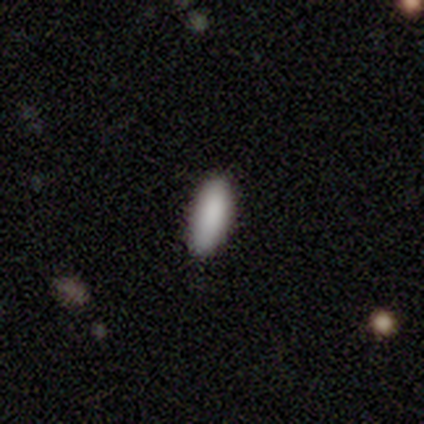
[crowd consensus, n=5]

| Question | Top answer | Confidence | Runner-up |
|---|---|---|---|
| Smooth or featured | smooth | 100% | — |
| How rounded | in between | 80% | cigar-shaped (20%) |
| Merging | none | 100% | — |